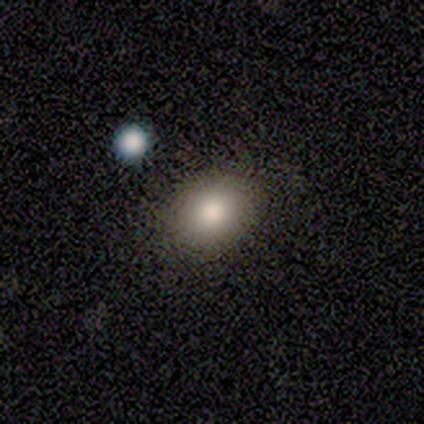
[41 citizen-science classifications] smooth 85%, star or artifact 10%, featured or disk 5%. Down the decision tree: how rounded — in between (60%); merging — none (70%).